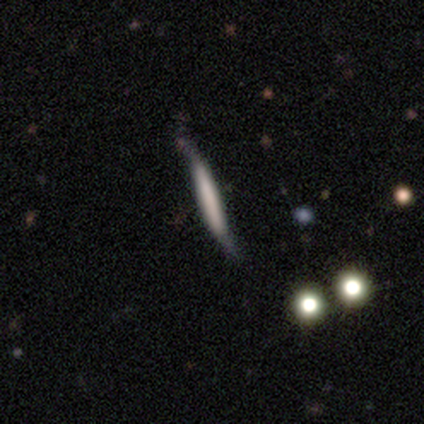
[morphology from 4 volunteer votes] type=smooth (75%); roundness=cigar-shaped (100%); merging=none (100%).